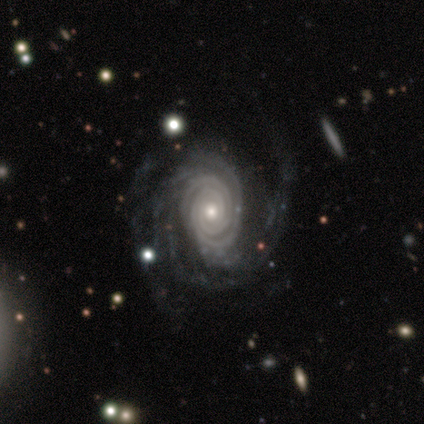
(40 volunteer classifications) smooth-or-featured: featured or disk: 92% | smooth: 5% | star or artifact: 2%
  disk-edge-on: no: 100% | yes: 0%
    bar: no: 81% | weak: 14% | strong: 5%
    has-spiral-arms: yes: 100% | no: 0%
      spiral-winding: tight: 81% | medium: 16% | loose: 3%
      spiral-arm-count: 2: 35% | can't tell: 24% | 4: 19% | more than 4: 14% | 3: 8% | 1: 0%
    bulge-size: small: 57% | moderate: 35% | large: 8% | dominant: 0% | none: 0%
  merging: none: 59% | major disturbance: 23% | minor disturbance: 15% | merger: 3%